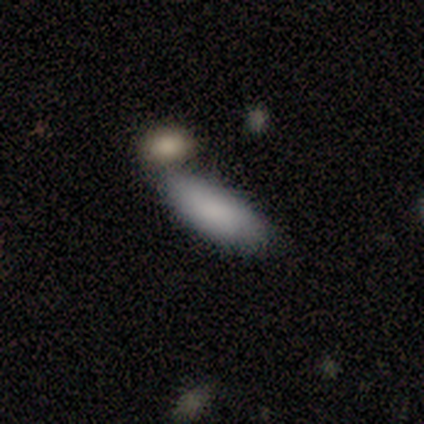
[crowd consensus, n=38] Volunteers were most divided on "merging": none: 56%, merger: 31%, minor disturbance: 14%, major disturbance: 0%. More confident: smooth or featured — smooth (87%); how rounded — in between (70%).